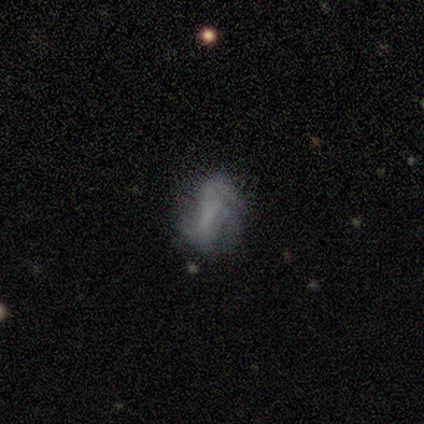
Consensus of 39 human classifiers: featured or disk 62%, smooth 26%, star or artifact 13%. Down the decision tree: edge-on disk — no (96%); bar — no (43%); spiral arms — yes (61%); spiral arm count — 2 (71%); spiral winding — loose (50%); bulge size — none (87%); merging — none (59%).